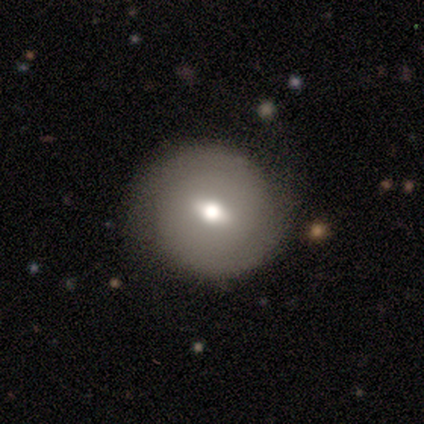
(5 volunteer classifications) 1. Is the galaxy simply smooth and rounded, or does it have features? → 80% featured or disk, 20% smooth, 0% star or artifact.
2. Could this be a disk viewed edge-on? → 100% no, 0% yes.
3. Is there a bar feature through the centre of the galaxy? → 75% weak, 25% strong, 0% no.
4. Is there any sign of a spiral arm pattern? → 50% yes (tied), 50% no (tied).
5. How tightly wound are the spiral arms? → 50% tight (tied), 50% medium (tied), 0% loose.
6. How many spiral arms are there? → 100% 2, 0% 1, 0% 3, 0% 4, 0% more than 4, 0% can't tell.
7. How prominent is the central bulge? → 50% moderate, 25% large, 25% small, 0% dominant, 0% none.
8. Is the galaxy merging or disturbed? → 80% none, 20% major disturbance, 0% minor disturbance, 0% merger.